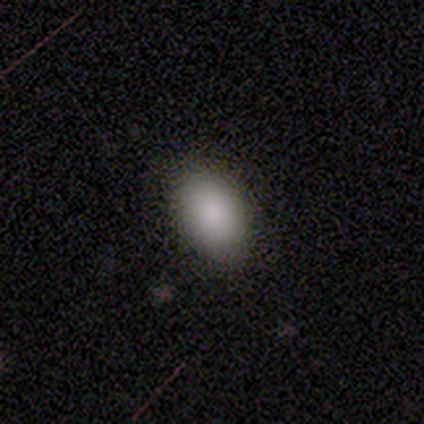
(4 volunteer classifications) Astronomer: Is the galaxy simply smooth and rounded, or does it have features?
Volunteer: smooth — 75%.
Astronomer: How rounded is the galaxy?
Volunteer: in between — 100%.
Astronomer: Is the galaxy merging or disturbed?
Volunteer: none — 100%.